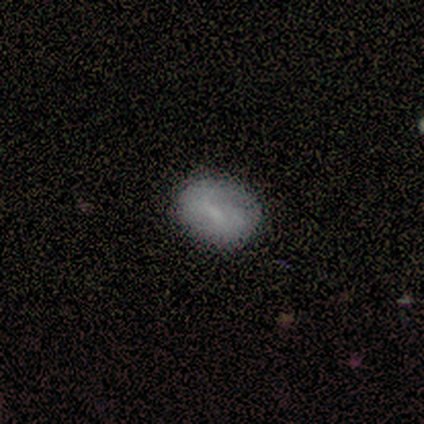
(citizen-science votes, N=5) A smooth galaxy with no disk features (60%) that is in between round and cigar-shaped (67%).

Vote fractions:
- Smooth or featured? smooth: 60% / featured or disk: 20% / star or artifact: 20%
- How rounded? in between: 67% / round: 33% / cigar-shaped: 0%
- Merging? none: 75% / minor disturbance: 25% / major disturbance: 0% / merger: 0%